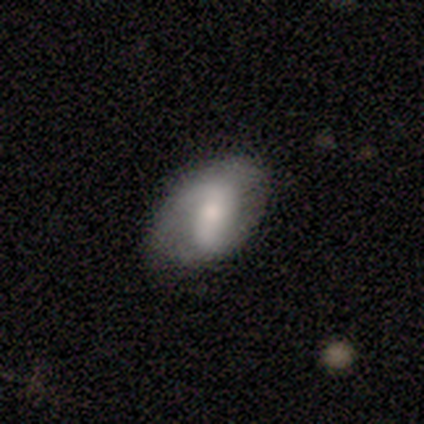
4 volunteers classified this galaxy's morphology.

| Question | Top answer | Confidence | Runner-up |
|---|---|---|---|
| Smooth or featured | smooth | 50% | tied: featured or disk (50%) |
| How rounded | in between | 50% | tied: cigar-shaped (50%) |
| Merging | none | 50% | minor disturbance (25%) |